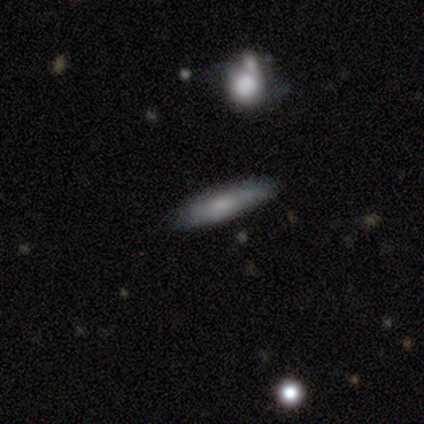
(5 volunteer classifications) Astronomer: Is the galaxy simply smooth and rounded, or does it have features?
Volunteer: smooth — 60%.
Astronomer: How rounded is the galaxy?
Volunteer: in between — 67%.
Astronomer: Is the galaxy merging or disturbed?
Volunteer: none — 75%.